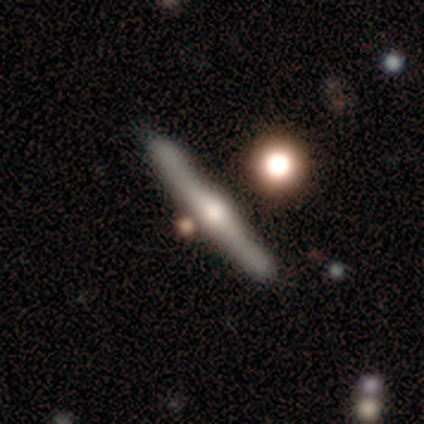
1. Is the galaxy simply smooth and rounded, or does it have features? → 70% featured or disk, 20% smooth, 10% star or artifact.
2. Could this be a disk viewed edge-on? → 95% yes, 5% no.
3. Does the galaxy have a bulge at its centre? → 90% rounded, 7% boxy, 3% none.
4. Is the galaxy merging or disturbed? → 77% none, 12% minor disturbance, 7% merger, 4% major disturbance.